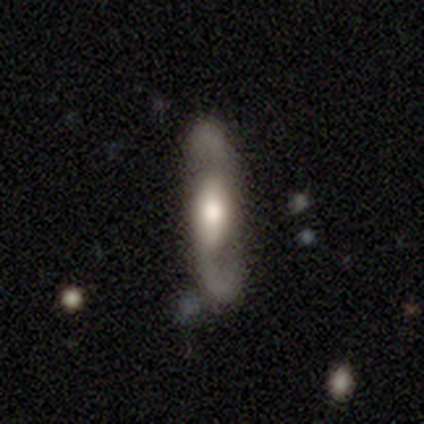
Smooth or featured? featured or disk (66%)
Edge-on disk? no (84%)
Bar? weak (38%)
Spiral arms? yes (86%)
Spiral winding? loose (72%)
Spiral arm count? 2 (100%)
Bulge size? moderate (43%)
Merging? none (74%)